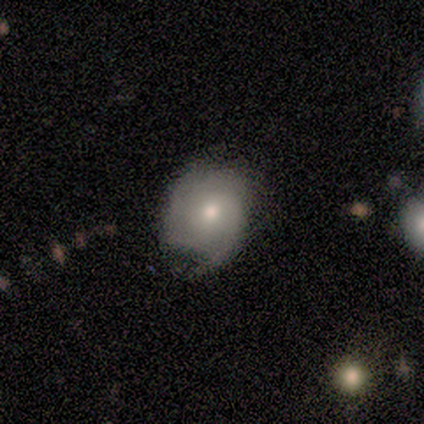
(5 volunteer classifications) Volunteers were most divided on "spiral winding" (2-way tie): tight: 50%, medium: 50%, loose: 0%; "spiral arm count" (2-way tie): 2: 50%, 3: 50%, 1: 0%, 4: 0%, more than 4: 0%, can't tell: 0%. More confident: edge-on disk — no (100%); bar — no (100%); merging — none (75%); spiral arms — yes (67%); bulge size — moderate (67%); smooth or featured — featured or disk (60%).